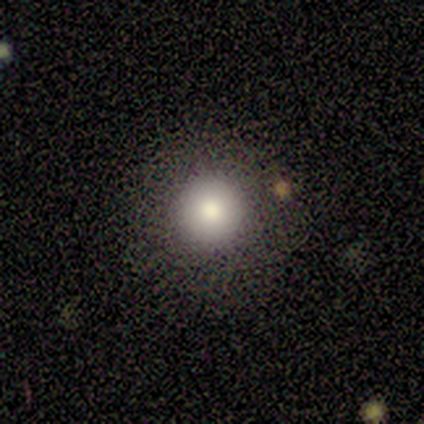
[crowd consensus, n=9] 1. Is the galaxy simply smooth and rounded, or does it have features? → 78% smooth, 11% featured or disk, 11% star or artifact.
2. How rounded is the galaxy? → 86% round, 14% in between, 0% cigar-shaped.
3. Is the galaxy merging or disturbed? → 100% none, 0% minor disturbance, 0% major disturbance, 0% merger.